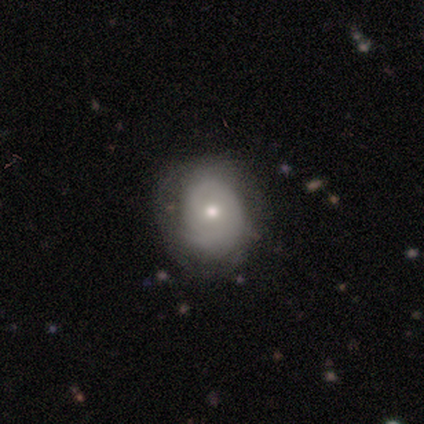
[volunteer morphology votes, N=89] Smooth or featured? featured or disk (48%)
Edge-on disk? no (98%)
Bar? no (86%)
Spiral arms? yes (60%)
Spiral winding? tight (60%)
Spiral arm count? 1 (40%)
Bulge size? moderate (60%)
Merging? none (66%)